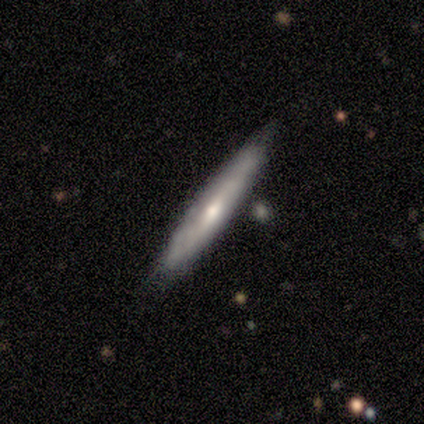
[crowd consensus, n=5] Overall: featured or disk (60%; smooth 40%). Edge-on disk: yes (100%). Edge-on bulge: rounded (100%). Merging: none (60%; minor disturbance 40%).